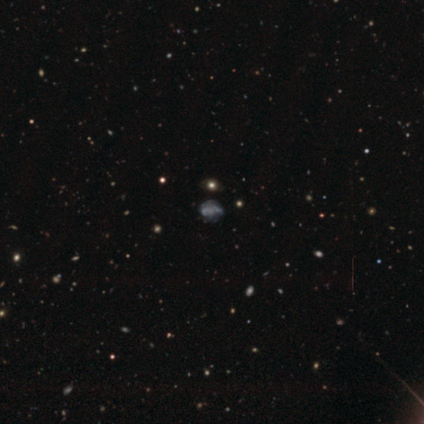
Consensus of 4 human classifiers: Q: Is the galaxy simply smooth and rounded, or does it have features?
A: smooth — 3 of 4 (75%).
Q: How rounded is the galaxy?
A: round — 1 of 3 (33%, tied with in between and cigar-shaped).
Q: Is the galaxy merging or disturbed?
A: none — 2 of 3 (67%).